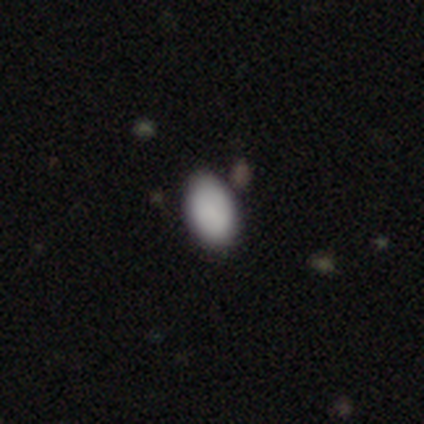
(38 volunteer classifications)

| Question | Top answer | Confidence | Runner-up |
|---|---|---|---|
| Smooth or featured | smooth | 76% | star or artifact (13%) |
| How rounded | in between | 100% | — |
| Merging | none | 91% | minor disturbance (9%) |